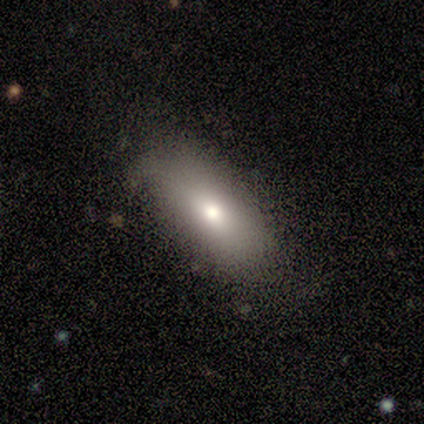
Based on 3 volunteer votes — A smooth galaxy with no disk features (33%, tied with featured or disk and star or artifact) that is in between round and cigar-shaped (100%). Merging: none (100%).